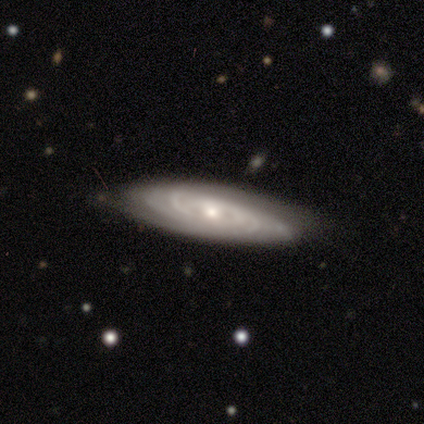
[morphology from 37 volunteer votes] Q: Smooth or featured?
A: featured or disk (92%); runner-up: smooth (8%)
Q: Edge-on disk?
A: no (76%); runner-up: yes (24%)
Q: Bar?
A: no (88%); runner-up: weak (8%)
Q: Spiral arms?
A: yes (96%); runner-up: no (4%)
Q: Spiral winding?
A: tight (88%); runner-up: loose (8%)
Q: Spiral arm count?
A: can't tell (48%); runner-up: 4 (28%)
Q: Bulge size?
A: small (65%); runner-up: moderate (31%)
Q: Merging?
A: none (86%); runner-up: minor disturbance (11%)